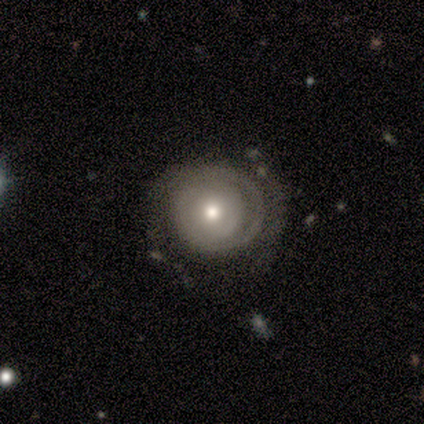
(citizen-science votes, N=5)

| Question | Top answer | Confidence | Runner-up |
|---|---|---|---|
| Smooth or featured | featured or disk | 100% | — |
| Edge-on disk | no | 100% | — |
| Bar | no | 80% | strong (20%) |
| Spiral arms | yes | 60% | no (40%) |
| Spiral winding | medium | 67% | tight (33%) |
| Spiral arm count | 2 | 67% | 3 (33%) |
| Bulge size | moderate | 80% | small (20%) |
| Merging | none | 100% | — |